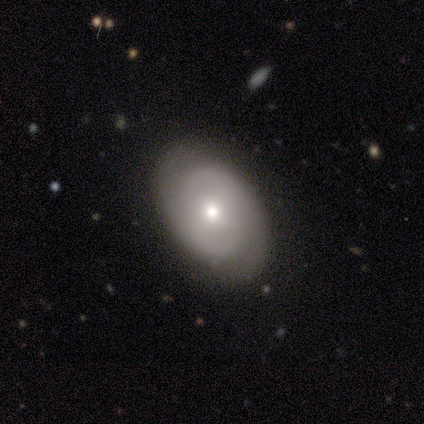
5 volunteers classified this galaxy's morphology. smooth_or_featured: smooth (p=0.80) [alt: featured or disk p=0.20]
how_rounded: in between (p=0.75) [alt: round p=0.25]
merging: none (p=1.00)